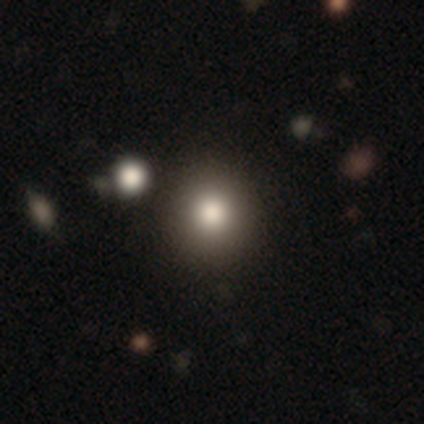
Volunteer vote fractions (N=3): Q: Smooth or featured?
A: smooth (67%); runner-up: featured or disk (33%)
Q: How rounded?
A: round (50%); tied with: in between (50%)
Q: Merging?
A: none (67%); runner-up: minor disturbance (33%)